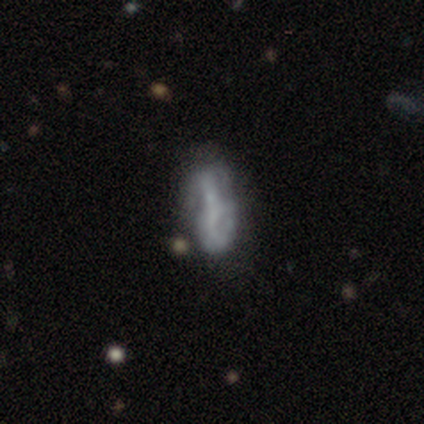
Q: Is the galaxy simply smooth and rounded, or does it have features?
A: featured or disk — 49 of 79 (62%).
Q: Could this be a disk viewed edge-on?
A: no — 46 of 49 (94%).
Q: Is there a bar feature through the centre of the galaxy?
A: no — 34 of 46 (74%).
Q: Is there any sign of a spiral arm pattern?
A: yes — 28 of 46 (61%).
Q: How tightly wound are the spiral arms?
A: loose — 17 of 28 (61%).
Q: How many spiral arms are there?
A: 2 — 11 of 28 (39%).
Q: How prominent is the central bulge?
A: none — 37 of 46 (80%).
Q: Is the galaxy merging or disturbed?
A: none — 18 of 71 (25%).